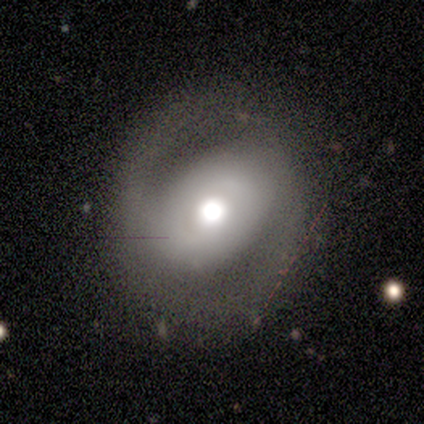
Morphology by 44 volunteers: This is likely a featured or disk galaxy (66%). It is clearly not viewed edge-on (100%). Bar: likely no (62%). Spiral arm pattern: clearly yes (90%). Spiral arm count: clearly 2 (92%). Spiral winding: possibly medium (50%). Central bulge: possibly large (48%). Merging: likely none (69%).